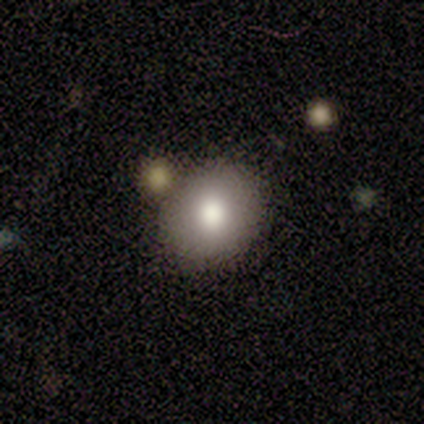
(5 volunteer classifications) smooth-or-featured: smooth: 40% (tied) | featured or disk: 40% (tied) | star or artifact: 20%
  how-rounded: round: 100% | in between: 0% | cigar-shaped: 0%
  merging: none: 75% | major disturbance: 25% | minor disturbance: 0% | merger: 0%